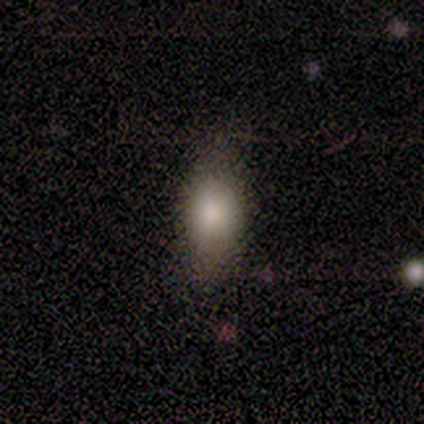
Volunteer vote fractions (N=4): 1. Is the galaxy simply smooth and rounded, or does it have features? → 50% smooth, 25% featured or disk, 25% star or artifact.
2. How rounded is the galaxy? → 50% round (tied), 50% in between (tied), 0% cigar-shaped.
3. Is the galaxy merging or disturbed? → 67% none, 33% major disturbance, 0% minor disturbance, 0% merger.